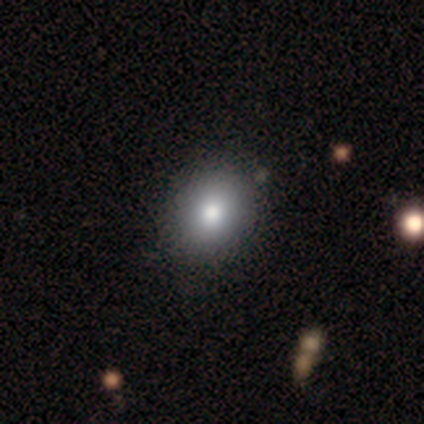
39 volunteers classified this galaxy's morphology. Overall: smooth (85%). How rounded: in between (52%; round 48%). Merging: none (58%).